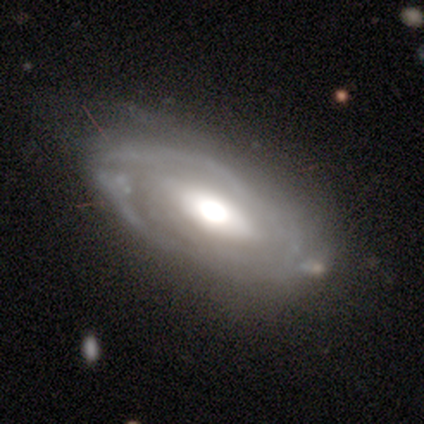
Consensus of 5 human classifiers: Volunteers were most divided on "spiral arm count" (3-way tie): 1: 33%, 2: 33%, can't tell: 33%, 3: 0%, 4: 0%, more than 4: 0%. More confident: edge-on disk — no (100%); smooth or featured — featured or disk (80%); spiral arms — yes (75%); bulge size — moderate (75%); spiral winding — tight (67%); merging — minor disturbance (60%); bar — no (50%).